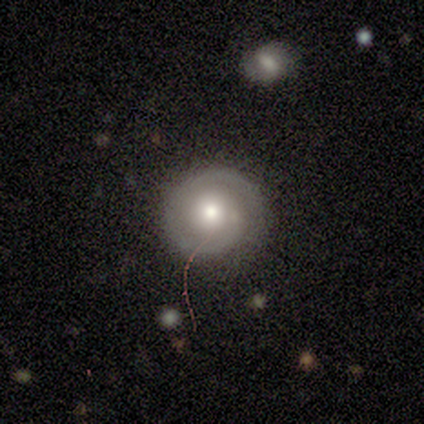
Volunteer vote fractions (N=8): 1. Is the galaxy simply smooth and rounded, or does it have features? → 62% featured or disk, 38% smooth, 0% star or artifact.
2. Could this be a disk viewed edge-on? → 100% no, 0% yes.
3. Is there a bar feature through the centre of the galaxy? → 80% no, 20% strong, 0% weak.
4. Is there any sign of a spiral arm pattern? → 100% yes, 0% no.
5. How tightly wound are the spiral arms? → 60% tight, 20% medium, 20% loose.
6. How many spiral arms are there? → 60% 1, 40% 2, 0% 3, 0% 4, 0% more than 4, 0% can't tell.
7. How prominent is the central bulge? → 60% small, 40% moderate, 0% dominant, 0% large, 0% none.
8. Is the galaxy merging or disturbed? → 75% none, 12% minor disturbance, 12% major disturbance, 0% merger.